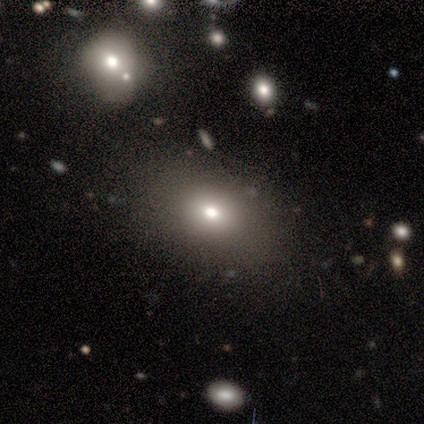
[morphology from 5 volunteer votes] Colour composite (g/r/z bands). It shows a smooth galaxy with no disk features (80%) that is in between round and cigar-shaped (100%). Merging: none (75%).